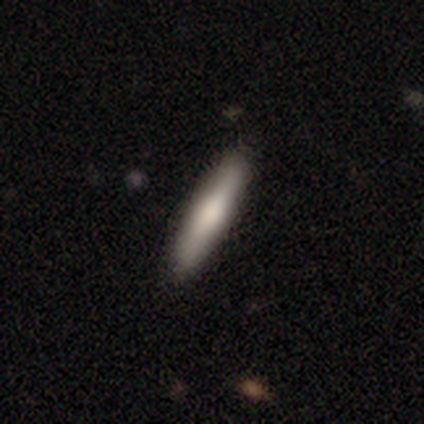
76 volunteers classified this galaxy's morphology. smooth-or-featured: smooth: 68% | featured or disk: 29% | star or artifact: 3%
  how-rounded: cigar-shaped: 92% | in between: 8% | round: 0%
  merging: none: 47% | minor disturbance: 3% | major disturbance: 3% | merger: 0%